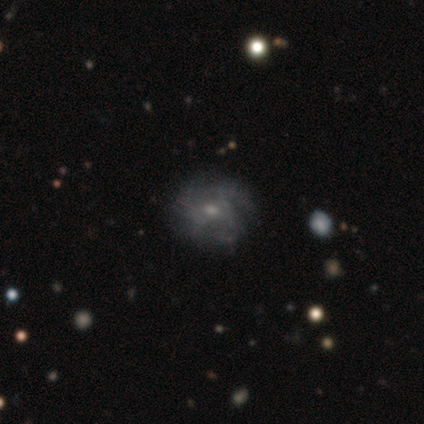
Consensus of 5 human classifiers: smooth-or-featured: featured or disk: 60% | smooth: 40% | star or artifact: 0%
  disk-edge-on: no: 100% | yes: 0%
    bar: no: 67% | weak: 33% | strong: 0%
    has-spiral-arms: yes: 67% | no: 33%
      spiral-winding: tight: 50% (tied) | medium: 50% (tied) | loose: 0%
      spiral-arm-count: 2: 50% (tied) | can't tell: 50% (tied) | 1: 0% | 3: 0% | 4: 0% | more than 4: 0%
    bulge-size: moderate: 67% | small: 33% | dominant: 0% | large: 0% | none: 0%
  merging: none: 60% | minor disturbance: 20% | major disturbance: 20% | merger: 0%